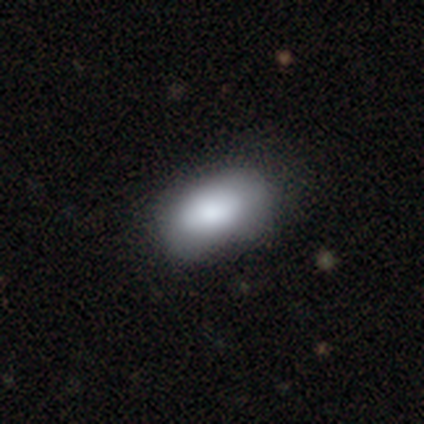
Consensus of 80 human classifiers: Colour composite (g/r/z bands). It shows a smooth galaxy with no disk features (76%) that is in between round and cigar-shaped (98%). Merging: none (32%).